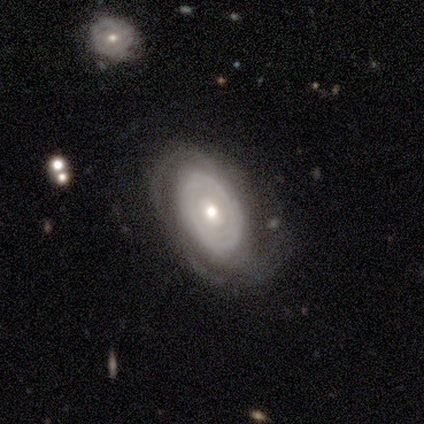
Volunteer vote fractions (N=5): smooth_or_featured: featured or disk (p=1.00)
disk_edge_on: no (p=1.00)
bar: no (p=0.80) [alt: weak p=0.20]
has_spiral_arms: yes (p=0.80) [alt: no p=0.20]
spiral_winding: tight (p=1.00)
spiral_arm_count: can't tell (p=1.00)
bulge_size: small (p=0.80) [alt: moderate p=0.20]
merging: none (p=1.00)